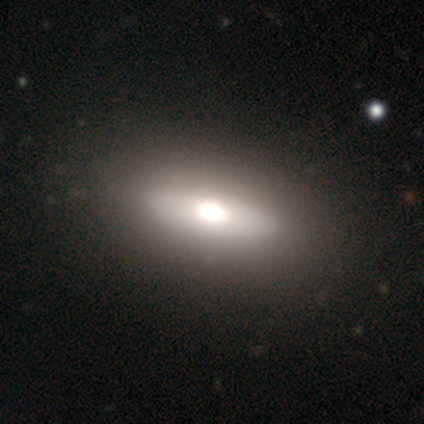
Q: Smooth or featured?
A: smooth (67%); runner-up: featured or disk (33%)
Q: How rounded?
A: in between (75%); runner-up: round (25%)
Q: Merging?
A: none (83%); runner-up: major disturbance (17%)